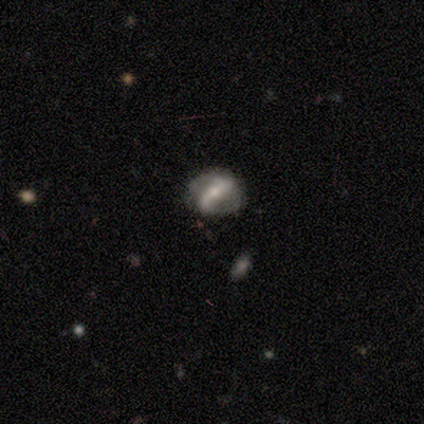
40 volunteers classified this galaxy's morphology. Smooth or featured: featured or disk — 68% (smooth — 20%)
Edge-on disk: no — 96% (yes — 4%)
Bar: strong — 38% (weak — 35%)
Spiral arms: yes — 81% (no — 19%)
Spiral winding: loose — 43% (tight — 29%)
Spiral arm count: 2 — 81% (1 — 10%)
Bulge size: small — 54% (moderate — 46%)
Merging: none — 74% (minor disturbance — 17%)